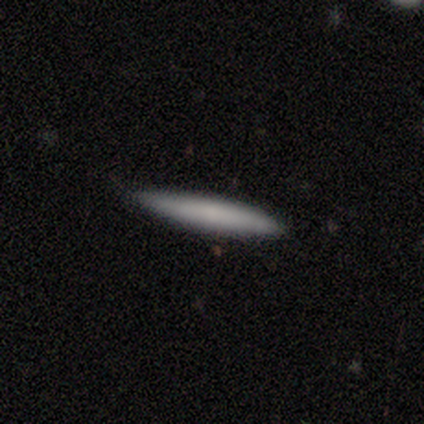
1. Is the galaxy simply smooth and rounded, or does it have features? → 80% smooth, 20% featured or disk, 0% star or artifact.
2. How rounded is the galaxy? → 100% cigar-shaped, 0% round, 0% in between.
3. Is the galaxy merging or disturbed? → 80% none, 20% minor disturbance, 0% major disturbance, 0% merger.